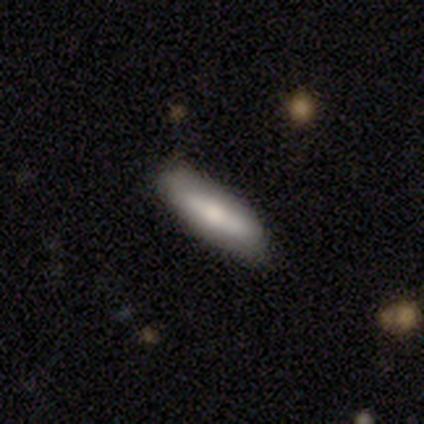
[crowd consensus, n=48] A smooth galaxy with no disk features (77%) that is cigar-shaped (57%).

Vote fractions:
- Smooth or featured? smooth: 77% / featured or disk: 19% / star or artifact: 4%
- How rounded? cigar-shaped: 57% / in between: 43% / round: 0%
- Merging? none: 80% / minor disturbance: 13% / major disturbance: 4% / merger: 2%